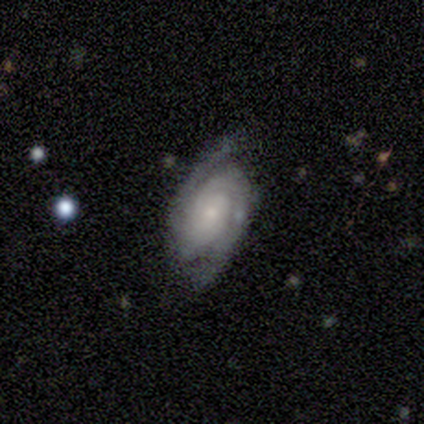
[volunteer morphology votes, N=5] Smooth or featured?
  - featured or disk: 80% *
  - star or artifact: 20%
  - smooth: 0%
Edge-on disk?
  - no: 100% *
  - yes: 0%
Bar?
  - no: 75% *
  - weak: 25%
  - strong: 0%
Spiral arms?
  - yes: 100% *
  - no: 0%
Spiral winding?
  - tight: 75% *
  - loose: 25%
  - medium: 0%
Spiral arm count?
  - 2: 50% * (tied)
  - 3: 50% * (tied)
  - 1: 0%
  - 4: 0%
  - more than 4: 0%
  - can't tell: 0%
Bulge size?
  - moderate: 50% * (tied)
  - small: 50% * (tied)
  - dominant: 0%
  - large: 0%
  - none: 0%
Merging?
  - none: 100% *
  - minor disturbance: 0%
  - major disturbance: 0%
  - merger: 0%